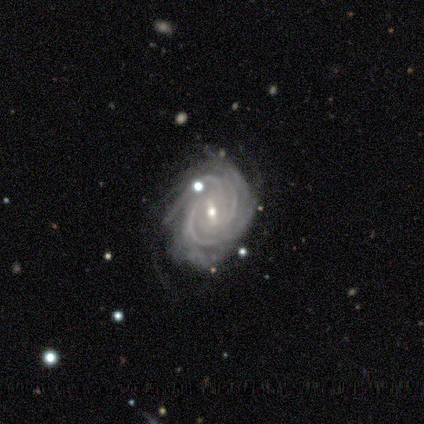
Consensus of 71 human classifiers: smooth-or-featured: featured or disk: 90% | star or artifact: 6% | smooth: 4%
  disk-edge-on: no: 100% | yes: 0%
    bar: weak: 61% | strong: 22% | no: 17%
    has-spiral-arms: yes: 100% | no: 0%
      spiral-winding: tight: 66% | medium: 31% | loose: 3%
      spiral-arm-count: 3: 36% | 4: 23% | more than 4: 16% | can't tell: 14% | 2: 11% | 1: 0%
    bulge-size: small: 59% | moderate: 38% | large: 2% | none: 2% | dominant: 0%
  merging: none: 66% | minor disturbance: 24% | major disturbance: 7% | merger: 3%